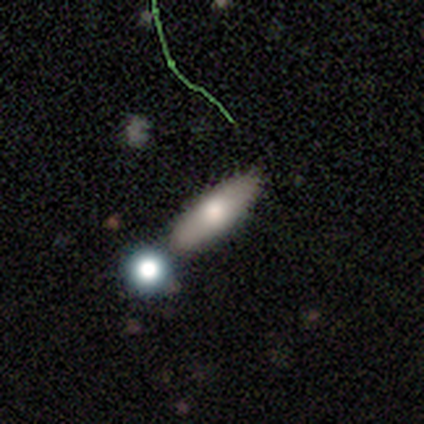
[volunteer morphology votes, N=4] Smooth or featured: smooth — 50% (tied with featured or disk — 50%)
How rounded: cigar-shaped — 100%
Merging: none — 100%